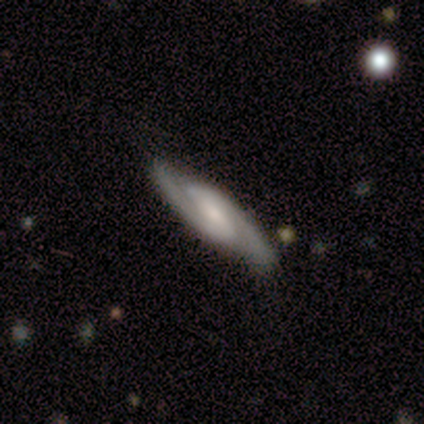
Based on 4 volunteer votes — Smooth or featured: featured or disk — 100%
Edge-on disk: no — 100%
Bar: weak — 75% (no — 25%)
Spiral arms: yes — 100%
Spiral winding: medium — 75% (tight — 25%)
Spiral arm count: 2 — 100%
Bulge size: moderate — 75% (none — 25%)
Merging: none — 100%